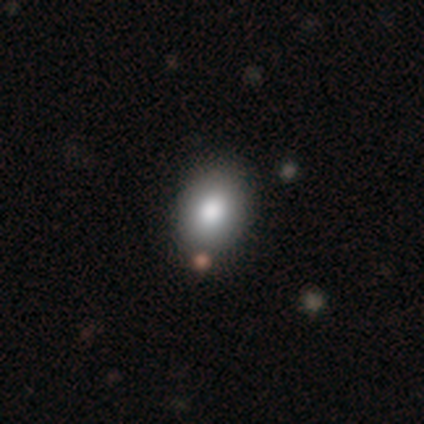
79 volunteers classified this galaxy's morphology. smooth-or-featured: smooth: 78% | star or artifact: 11% | featured or disk: 10%
  how-rounded: in between: 65% | round: 34% | cigar-shaped: 2%
  merging: none: 39% | minor disturbance: 10% | merger: 9% | major disturbance: 1%